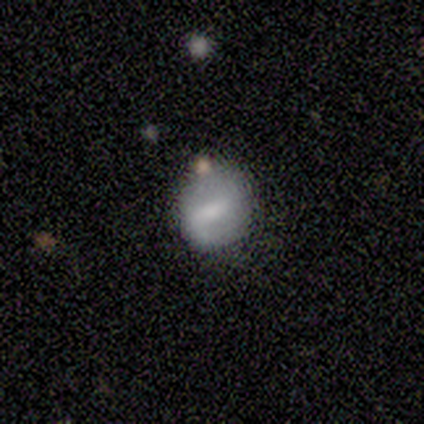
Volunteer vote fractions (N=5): A featured or disk galaxy (60%) with a weak bar (67%), 1 (100%) tight (50%, tied with loose) spiral arms (67%) and a moderate central bulge (33%, tied with small and none).

Vote fractions:
- Smooth or featured? featured or disk: 60% / smooth: 40% / star or artifact: 0%
- Edge-on disk? no: 100% / yes: 0%
- Bar? weak: 67% / strong: 33% / no: 0%
- Spiral arms? yes: 67% / no: 33%
- Spiral winding? tight: 50% (tied) / loose: 50% (tied) / medium: 0%
- Spiral arm count? 1: 100% / 2: 0% / 3: 0% / 4: 0% / more than 4: 0% / can't tell: 0%
- Bulge size? moderate: 33% (tied) / small: 33% (tied) / none: 33% (tied) / dominant: 0% / large: 0%
- Merging? none: 80% / merger: 20% / minor disturbance: 0% / major disturbance: 0%